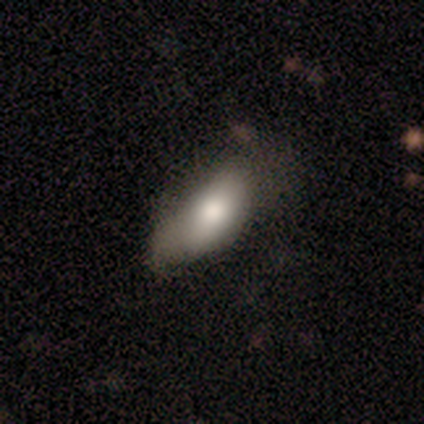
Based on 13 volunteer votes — Smooth or featured? smooth (69%)
How rounded? in between (100%)
Merging? none (58%)